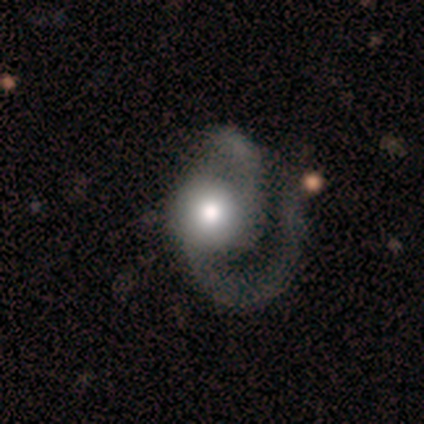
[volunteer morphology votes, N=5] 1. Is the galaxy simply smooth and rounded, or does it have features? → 80% featured or disk, 20% smooth, 0% star or artifact.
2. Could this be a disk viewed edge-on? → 100% no, 0% yes.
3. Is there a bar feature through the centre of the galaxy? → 75% no, 25% strong, 0% weak.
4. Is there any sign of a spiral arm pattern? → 100% yes, 0% no.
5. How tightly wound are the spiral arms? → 75% loose, 25% medium, 0% tight.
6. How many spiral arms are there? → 75% 2, 25% 1, 0% 3, 0% 4, 0% more than 4, 0% can't tell.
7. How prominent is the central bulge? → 50% large (tied), 50% moderate (tied), 0% dominant, 0% small, 0% none.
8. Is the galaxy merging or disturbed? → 60% major disturbance, 20% none, 20% merger, 0% minor disturbance.